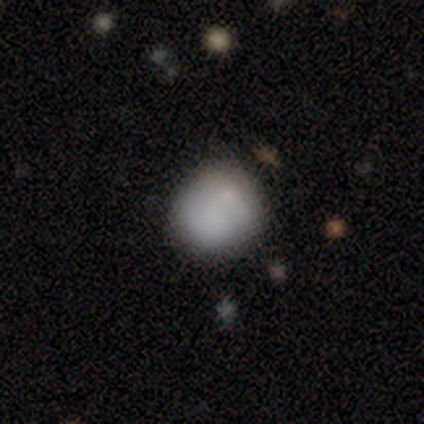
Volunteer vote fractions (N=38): This appears to be a smooth galaxy with no disk features (79%) that is round (77%). Merging: none (65%).